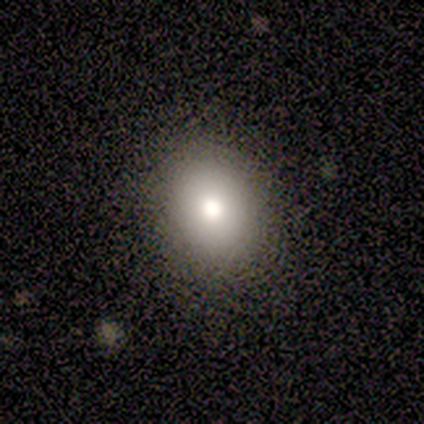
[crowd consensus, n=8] Morphology: type=smooth (75%); roundness=round (50%, tied with in between); merging=none (86%).